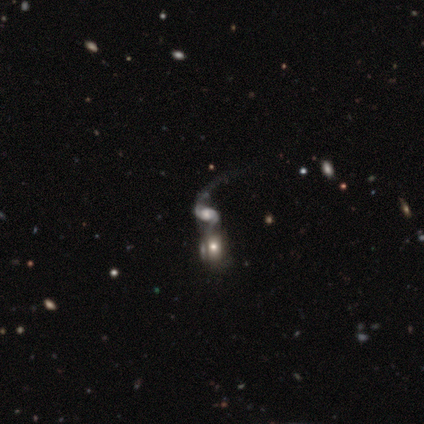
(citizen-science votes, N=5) A featured or disk galaxy (100%) with no bar (60%), 1 (50%, tied with 2) loose (100%) spiral arms (80%) and a large central bulge (40%, tied with moderate).

Vote fractions:
- Smooth or featured? featured or disk: 100% / smooth: 0% / star or artifact: 0%
- Edge-on disk? no: 100% / yes: 0%
- Bar? no: 60% / strong: 20% / weak: 20%
- Spiral arms? yes: 80% / no: 20%
- Spiral winding? loose: 100% / tight: 0% / medium: 0%
- Spiral arm count? 1: 50% (tied) / 2: 50% (tied) / 3: 0% / 4: 0% / more than 4: 0% / can't tell: 0%
- Bulge size? large: 40% (tied) / moderate: 40% (tied) / none: 20% / dominant: 0% / small: 0%
- Merging? merger: 100% / none: 0% / minor disturbance: 0% / major disturbance: 0%